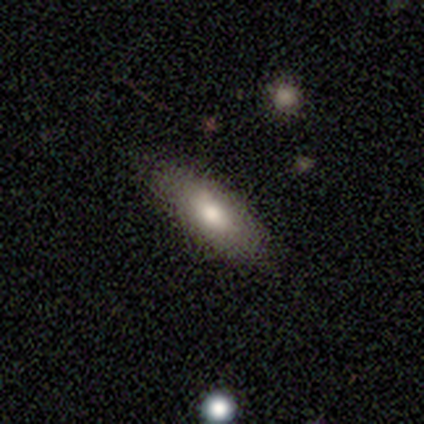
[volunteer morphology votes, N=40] smooth-or-featured: smooth: 75% | featured or disk: 20% | star or artifact: 5%
  how-rounded: in between: 83% | cigar-shaped: 17% | round: 0%
  merging: none: 61% | minor disturbance: 16% | major disturbance: 3% | merger: 0%